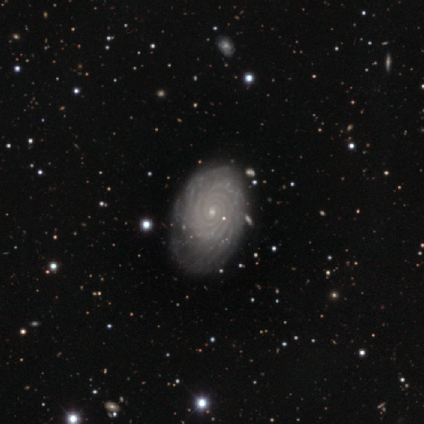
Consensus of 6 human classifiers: This is clearly a featured or disk galaxy (100%). It is clearly not viewed edge-on (100%). Bar: likely no (67%). Spiral arm pattern: clearly yes (100%). Spiral arm count: likely more than 4 (67%). Spiral winding: clearly tight (100%). Central bulge: clearly small (83%). Merging: clearly none (83%).